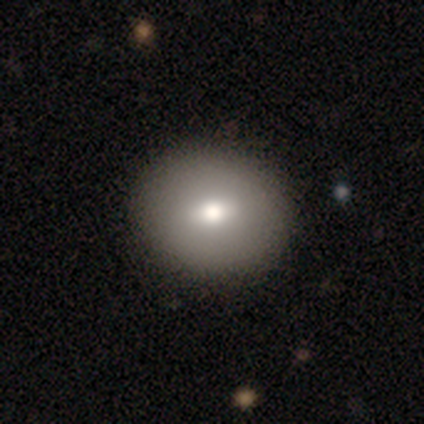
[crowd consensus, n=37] Morphology: type=smooth (86%); roundness=round (88%); merging=none (57%).